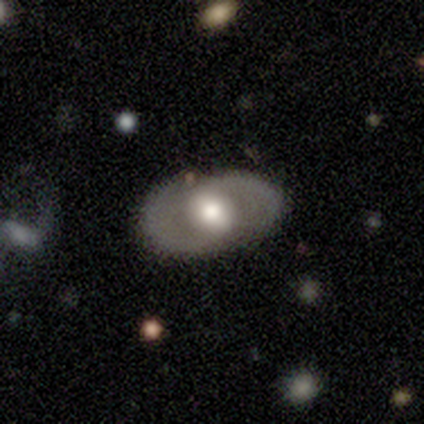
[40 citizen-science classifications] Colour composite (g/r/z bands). It shows a featured or disk galaxy (70%) with no bar (45%), 2 (73%) medium (45%) spiral arms (50%, tied with no) and a large central bulge (64%). Merging: none (60%).